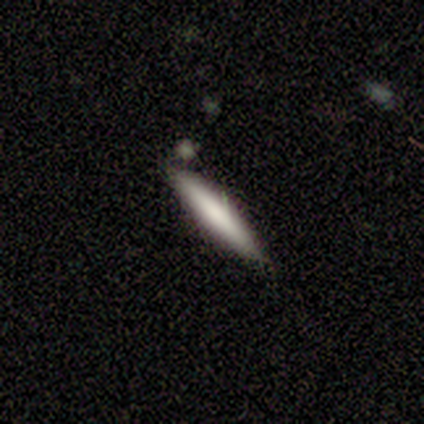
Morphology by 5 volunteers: Smooth or featured? smooth (80%)
How rounded? cigar-shaped (100%)
Merging? none (80%)